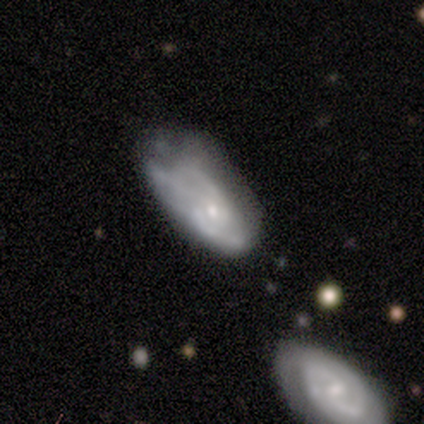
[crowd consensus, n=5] This appears to be a featured or disk galaxy (60%) with a weak bar (67%), 2 (67%) tight (33%, tied with medium and loose) spiral arms (100%) and a small central bulge (67%). Merging: minor disturbance (50%).